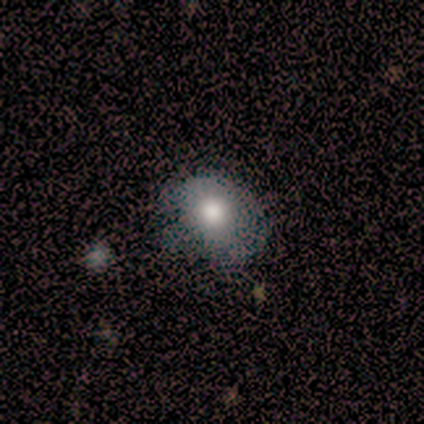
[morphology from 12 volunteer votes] This appears to be a smooth galaxy with no disk features (58%) that is round (71%). Merging: minor disturbance (64%).